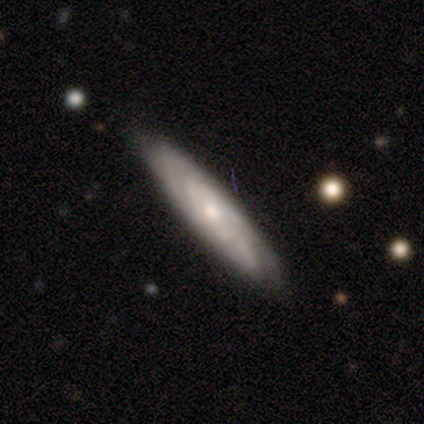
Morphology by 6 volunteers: Smooth or featured: featured or disk — 83% (smooth — 17%)
Edge-on disk: yes — 60% (no — 40%)
Edge-on bulge: none — 67% (rounded — 33%)
Merging: none — 67% (minor disturbance — 17%)